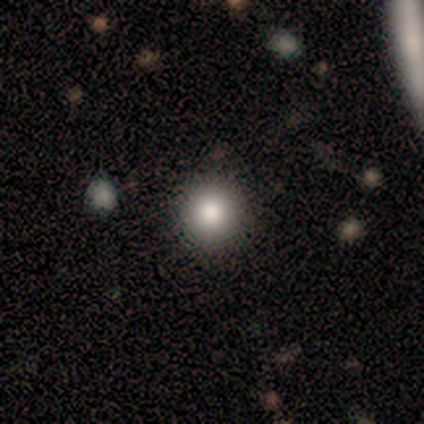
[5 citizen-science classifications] smooth-or-featured: smooth: 100% | featured or disk: 0% | star or artifact: 0%
  how-rounded: round: 100% | in between: 0% | cigar-shaped: 0%
  merging: none: 100% | minor disturbance: 0% | major disturbance: 0% | merger: 0%